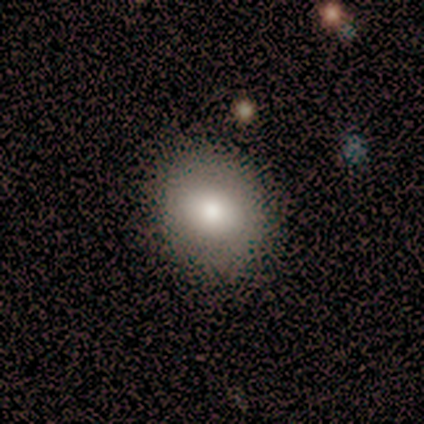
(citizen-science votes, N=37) smooth 76%, featured or disk 19%, star or artifact 5%. Down the decision tree: how rounded — round (68%); merging — none (71%).